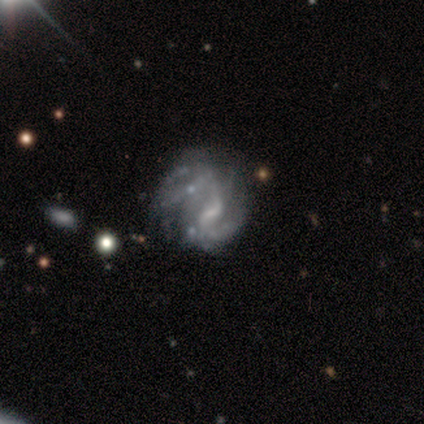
This is likely a featured or disk galaxy (60%). It is clearly not viewed edge-on (100%). Bar: likely no (67%). Spiral arm pattern: likely yes (67%). Spiral arm count: clearly 2 (100%). Spiral winding: possibly tight (50%, tied with loose). Central bulge: marginally moderate (33%, tied with small and none). Merging: marginally minor disturbance (33%, tied with major disturbance and merger).